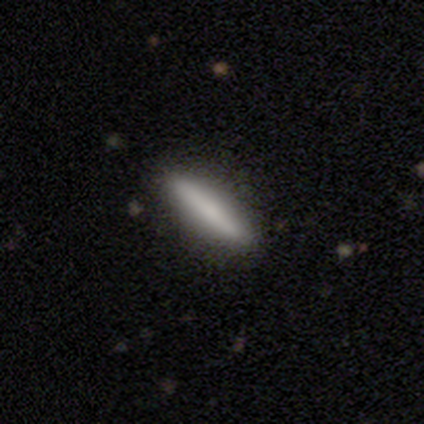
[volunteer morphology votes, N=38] A smooth galaxy with no disk features (68%) that is cigar-shaped (81%).

Vote fractions:
- Smooth or featured? smooth: 68% / featured or disk: 32% / star or artifact: 0%
- How rounded? cigar-shaped: 81% / in between: 19% / round: 0%
- Merging? none: 92% / major disturbance: 5% / merger: 3% / minor disturbance: 0%